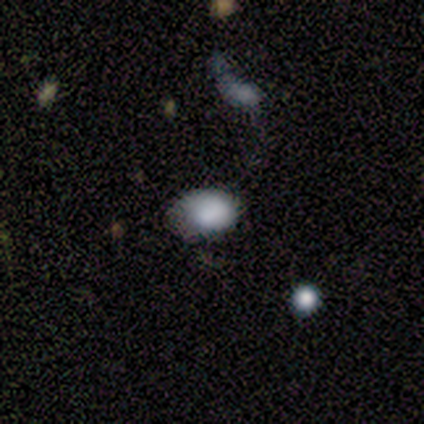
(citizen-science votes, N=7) A smooth galaxy with no disk features (100%) that is in between round and cigar-shaped (86%). Merging: none (57%).